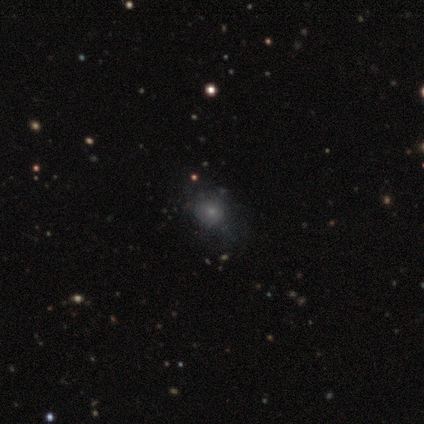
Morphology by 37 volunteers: Smooth or featured? 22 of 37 (59%) said smooth. How rounded? 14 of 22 (64%) said round. Merging? 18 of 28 (64%) said none.